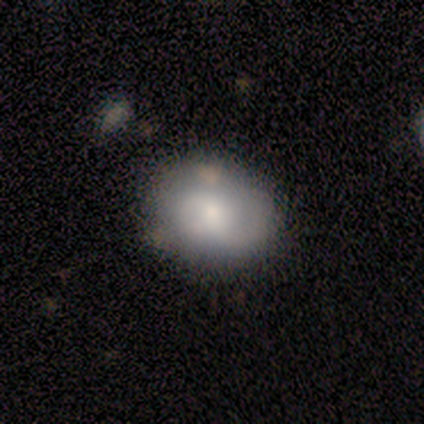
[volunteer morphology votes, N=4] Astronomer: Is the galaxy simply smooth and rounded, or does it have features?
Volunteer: smooth — 50%, tied with featured or disk at 50%.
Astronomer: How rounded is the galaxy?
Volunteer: round — 50%, tied with in between at 50%.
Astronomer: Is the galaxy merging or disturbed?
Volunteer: none — 50%, tied with minor disturbance at 50%.